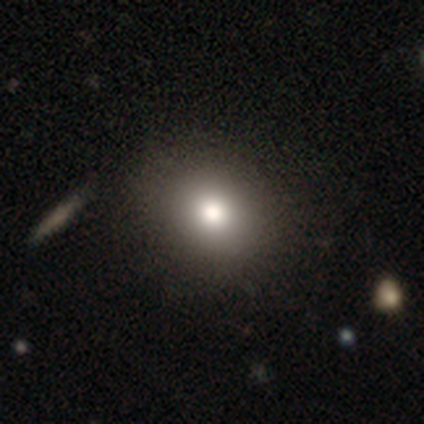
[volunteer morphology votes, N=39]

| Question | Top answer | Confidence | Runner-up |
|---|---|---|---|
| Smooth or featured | smooth | 77% | featured or disk (13%) |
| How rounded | round | 53% | in between (47%) |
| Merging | none | 63% | merger (6%) |